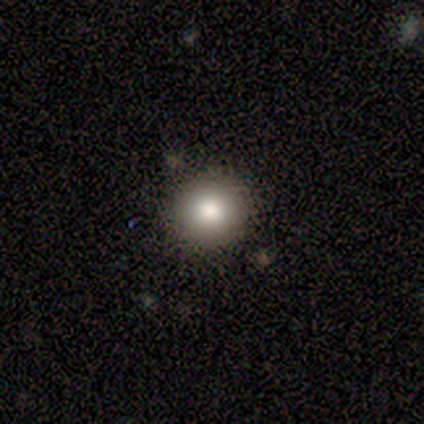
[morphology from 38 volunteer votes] type=smooth (71%); roundness=round (93%); merging=none (97%).